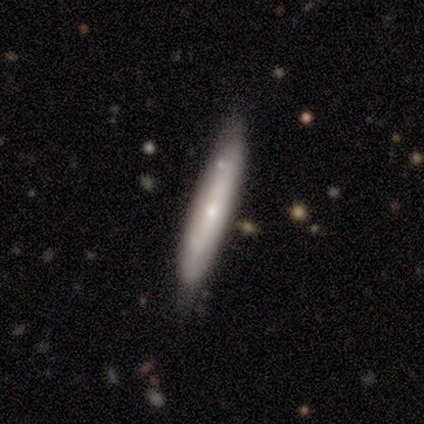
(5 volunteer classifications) Smooth or featured? 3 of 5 (60%) said featured or disk. Edge-on disk? 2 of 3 (67%) said no. Bar? 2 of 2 (100%) said no. Spiral arms? 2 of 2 (100%) said no. Bulge size? 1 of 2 (50%, tied with small) said moderate. Merging? 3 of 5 (60%) said minor disturbance.